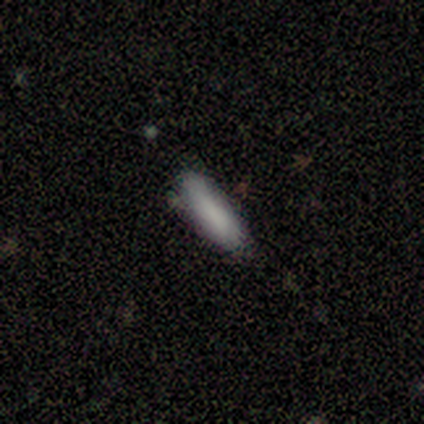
Smooth or featured?
  - smooth: 100% *
  - featured or disk: 0%
  - star or artifact: 0%
How rounded?
  - in between: 60% *
  - cigar-shaped: 40%
  - round: 0%
Merging?
  - none: 60% *
  - minor disturbance: 40%
  - major disturbance: 0%
  - merger: 0%